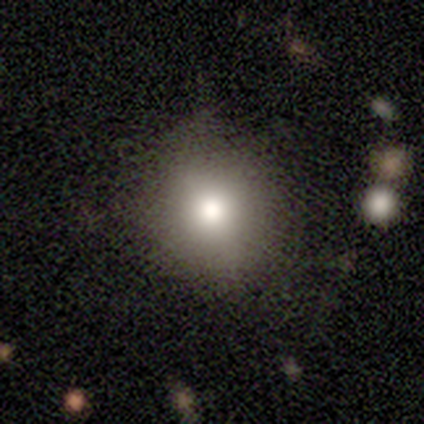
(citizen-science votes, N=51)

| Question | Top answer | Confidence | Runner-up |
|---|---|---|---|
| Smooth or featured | smooth | 88% | star or artifact (8%) |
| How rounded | round | 76% | in between (24%) |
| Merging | none | 77% | minor disturbance (15%) |